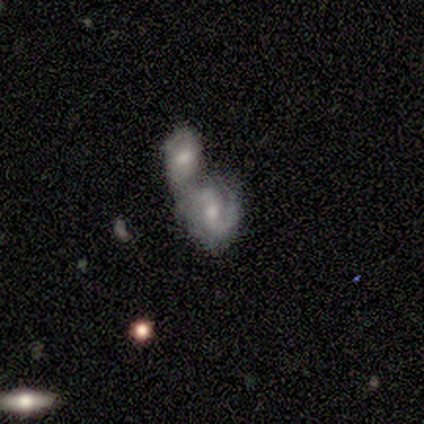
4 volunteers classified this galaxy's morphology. Overall: featured or disk (100%). Edge-on disk: no (100%). Bar: weak (75%). Spiral arms: yes (100%). Spiral arm count: 2 (100%). Spiral winding: tight (50%; medium 25%). Bulge size: moderate (100%). Merging: merger (75%).